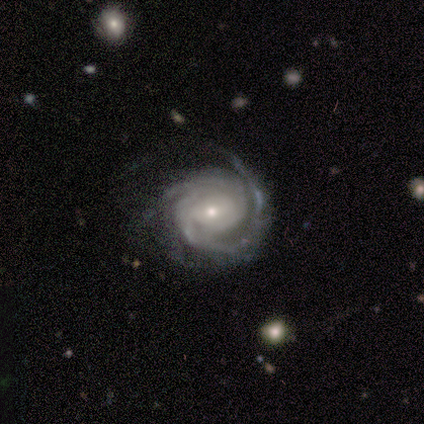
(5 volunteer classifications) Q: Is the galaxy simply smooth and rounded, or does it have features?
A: featured or disk — 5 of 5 (100%).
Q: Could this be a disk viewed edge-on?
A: no — 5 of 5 (100%).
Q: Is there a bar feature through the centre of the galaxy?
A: no — 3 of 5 (60%).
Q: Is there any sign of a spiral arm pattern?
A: yes — 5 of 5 (100%).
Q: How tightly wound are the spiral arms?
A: tight — 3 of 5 (60%).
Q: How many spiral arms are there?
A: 2 — 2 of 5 (40%, tied with can't tell).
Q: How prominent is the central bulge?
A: small — 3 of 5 (60%).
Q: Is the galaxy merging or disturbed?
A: none — 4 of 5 (80%).